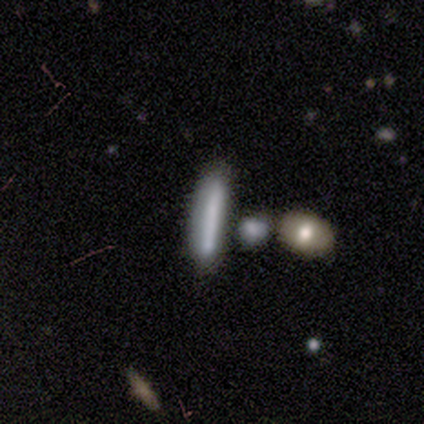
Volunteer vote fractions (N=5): Volunteers were most divided on "smooth or featured": smooth: 60%, featured or disk: 40%, star or artifact: 0%. More confident: how rounded — cigar-shaped (100%); merging — none (80%).